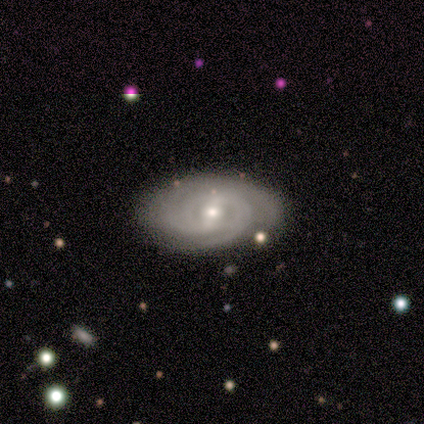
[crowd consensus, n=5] A featured or disk galaxy (80%) with no bar (75%), 2 (50%) tight (100%) spiral arms (100%) and a small central bulge (100%).

Vote fractions:
- Smooth or featured? featured or disk: 80% / smooth: 20% / star or artifact: 0%
- Edge-on disk? no: 100% / yes: 0%
- Bar? no: 75% / weak: 25% / strong: 0%
- Spiral arms? yes: 100% / no: 0%
- Spiral winding? tight: 100% / medium: 0% / loose: 0%
- Spiral arm count? 2: 50% / 4: 25% / can't tell: 25% / 1: 0% / 3: 0% / more than 4: 0%
- Bulge size? small: 100% / dominant: 0% / large: 0% / moderate: 0% / none: 0%
- Merging? none: 80% / minor disturbance: 20% / major disturbance: 0% / merger: 0%